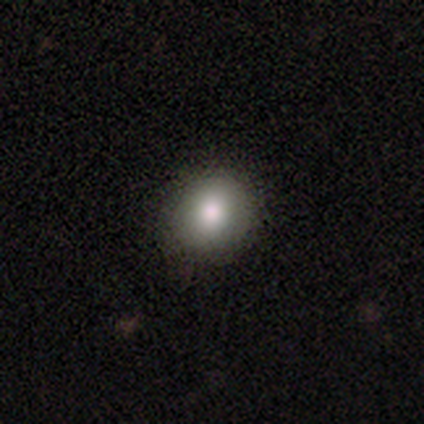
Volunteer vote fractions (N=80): This is clearly a smooth galaxy (88%). How rounded: clearly round (80%). Merging: possibly none (50%).